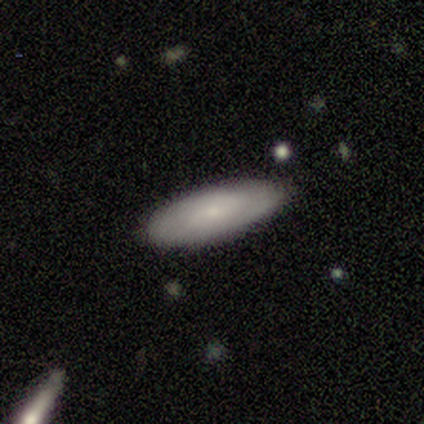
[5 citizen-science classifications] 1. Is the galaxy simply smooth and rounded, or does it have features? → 60% smooth, 40% featured or disk, 0% star or artifact.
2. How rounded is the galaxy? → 67% in between, 33% cigar-shaped, 0% round.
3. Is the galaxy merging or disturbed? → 60% none, 40% minor disturbance, 0% major disturbance, 0% merger.